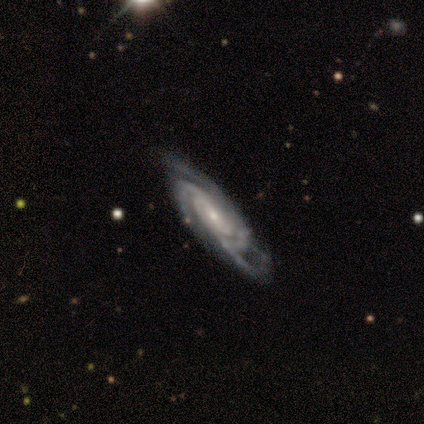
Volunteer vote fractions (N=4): featured or disk 100%, smooth 0%, star or artifact 0%. Down the decision tree: edge-on disk — no (100%); bar — no (75%); spiral arms — yes (100%); spiral arm count — 3 (50%); spiral winding — tight (50%, tied with medium); bulge size — small (75%); merging — none (75%).